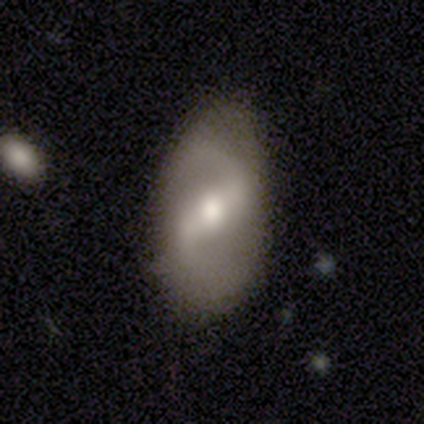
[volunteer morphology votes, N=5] Smooth or featured? 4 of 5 (80%) said featured or disk. Edge-on disk? 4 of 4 (100%) said no. Bar? 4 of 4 (100%) said strong. Spiral arms? 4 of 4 (100%) said yes. Spiral winding? 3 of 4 (75%) said medium. Spiral arm count? 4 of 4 (100%) said 2. Bulge size? 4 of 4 (100%) said moderate. Merging? 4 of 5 (80%) said none.